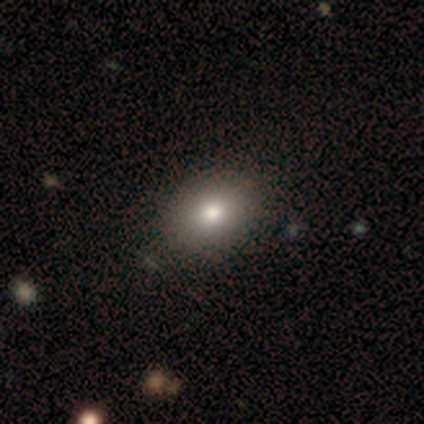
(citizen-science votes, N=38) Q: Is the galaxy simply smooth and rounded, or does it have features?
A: smooth — 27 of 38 (71%).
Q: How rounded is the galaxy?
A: in between — 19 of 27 (70%).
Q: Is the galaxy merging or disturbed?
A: none — 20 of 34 (59%).